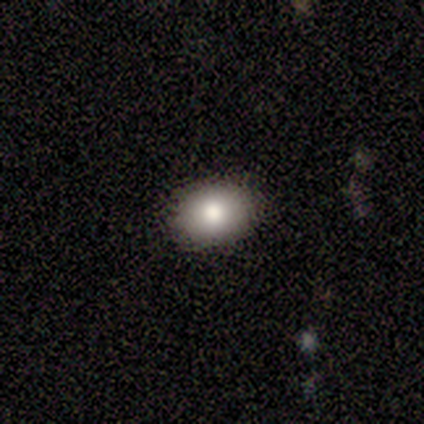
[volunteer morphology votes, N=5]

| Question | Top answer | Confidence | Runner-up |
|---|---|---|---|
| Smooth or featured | smooth | 80% | featured or disk (20%) |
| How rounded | in between | 100% | — |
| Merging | none | 100% | — |